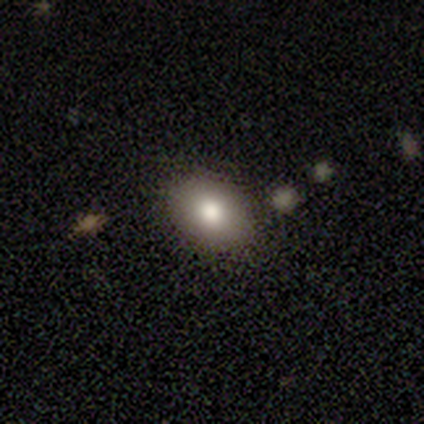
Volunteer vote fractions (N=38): smooth-or-featured: smooth: 89% | star or artifact: 8% | featured or disk: 3%
  how-rounded: in between: 62% | round: 38% | cigar-shaped: 0%
  merging: none: 89% | minor disturbance: 6% | merger: 6% | major disturbance: 0%